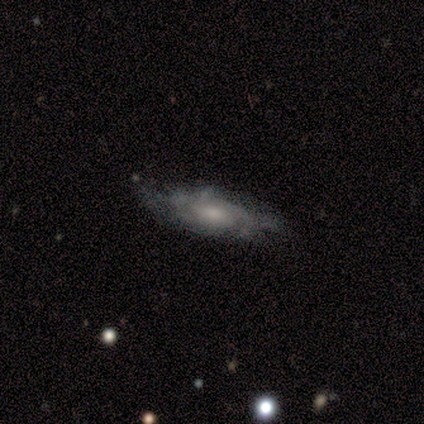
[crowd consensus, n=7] Q: Smooth or featured?
A: featured or disk (100%)
Q: Edge-on disk?
A: no (100%)
Q: Bar?
A: no (100%)
Q: Spiral arms?
A: yes (86%); runner-up: no (14%)
Q: Spiral winding?
A: medium (50%); runner-up: tight (33%)
Q: Spiral arm count?
A: can't tell (50%); runner-up: 1 (17%)
Q: Bulge size?
A: moderate (43%); runner-up: small (29%)
Q: Merging?
A: none (57%); runner-up: minor disturbance (29%)